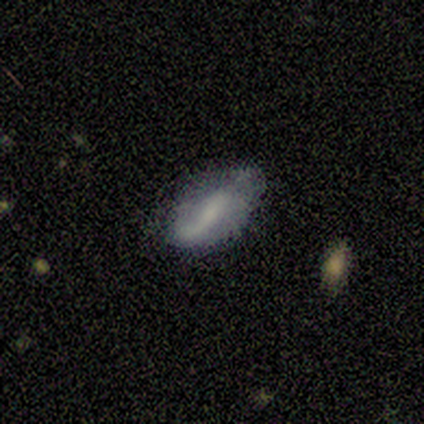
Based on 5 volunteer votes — Smooth or featured?
  - featured or disk: 60% *
  - smooth: 40%
  - star or artifact: 0%
Edge-on disk?
  - no: 100% *
  - yes: 0%
Bar?
  - strong: 33% * (tied)
  - weak: 33% * (tied)
  - no: 33% * (tied)
Spiral arms?
  - no: 100% *
  - yes: 0%
Bulge size?
  - none: 100% *
  - dominant: 0%
  - large: 0%
  - moderate: 0%
  - small: 0%
Merging?
  - minor disturbance: 80% *
  - none: 20%
  - major disturbance: 0%
  - merger: 0%